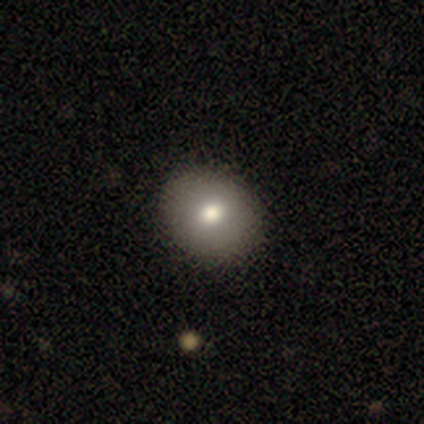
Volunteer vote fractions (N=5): Q: Smooth or featured?
A: smooth (60%); runner-up: featured or disk (40%)
Q: How rounded?
A: round (100%)
Q: Merging?
A: none (80%); runner-up: minor disturbance (20%)